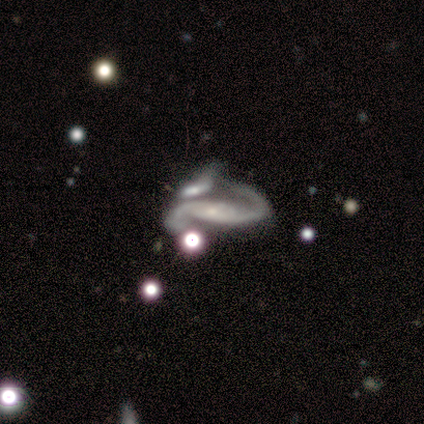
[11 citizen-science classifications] A featured or disk galaxy (100%) with no bar (60%), 2 (90%) medium (60%) spiral arms (100%) and a small central bulge (80%).

Vote fractions:
- Smooth or featured? featured or disk: 100% / smooth: 0% / star or artifact: 0%
- Edge-on disk? no: 91% / yes: 9%
- Bar? no: 60% / strong: 20% / weak: 20%
- Spiral arms? yes: 100% / no: 0%
- Spiral winding? medium: 60% / loose: 40% / tight: 0%
- Spiral arm count? 2: 90% / 1: 10% / 3: 0% / 4: 0% / more than 4: 0% / can't tell: 0%
- Bulge size? small: 80% / none: 20% / dominant: 0% / large: 0% / moderate: 0%
- Merging? none: 36% (tied) / merger: 36% (tied) / minor disturbance: 18% / major disturbance: 9%